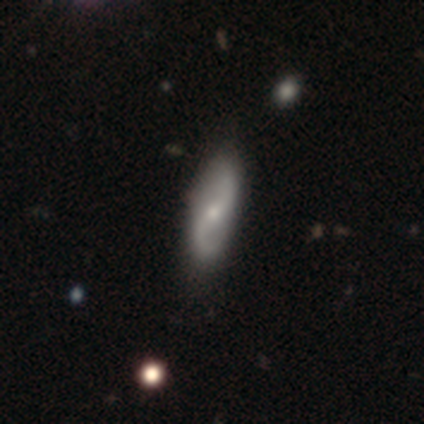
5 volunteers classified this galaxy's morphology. smooth-or-featured: featured or disk: 80% | smooth: 20% | star or artifact: 0%
  disk-edge-on: no: 100% | yes: 0%
    bar: weak: 50% (tied) | no: 50% (tied) | strong: 0%
    has-spiral-arms: yes: 100% | no: 0%
      spiral-winding: loose: 50% | tight: 25% | medium: 25%
      spiral-arm-count: 2: 75% | 1: 25% | 3: 0% | 4: 0% | more than 4: 0% | can't tell: 0%
    bulge-size: small: 50% | moderate: 25% | none: 25% | dominant: 0% | large: 0%
  merging: none: 100% | minor disturbance: 0% | major disturbance: 0% | merger: 0%